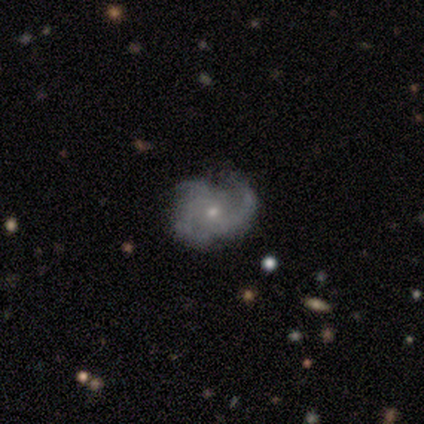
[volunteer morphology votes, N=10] This is clearly a featured or disk galaxy (80%). It is clearly not viewed edge-on (100%). Bar: likely no (75%). Spiral arm pattern: likely yes (75%). Spiral arm count: likely 3 (67%). Spiral winding: likely medium (67%). Central bulge: likely small (62%). Merging: possibly none (56%).